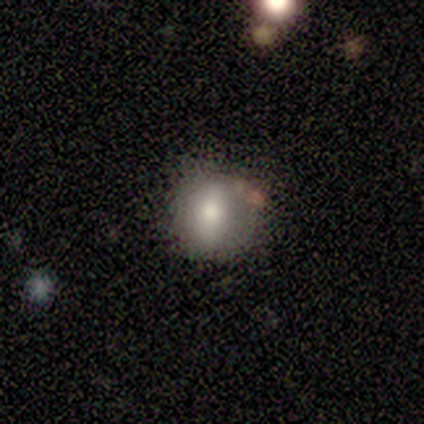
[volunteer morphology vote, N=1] A smooth galaxy with no disk features (100%) that is round (100%). Merging: minor disturbance (100%).